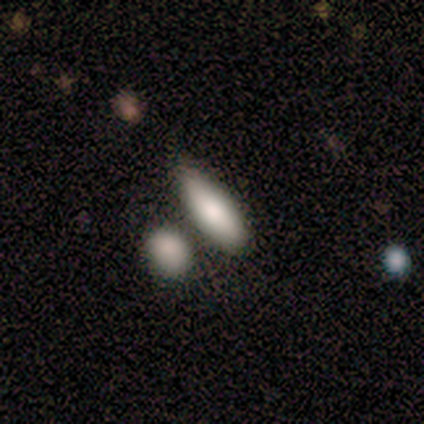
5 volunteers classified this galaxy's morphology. A smooth galaxy with no disk features (100%) that is cigar-shaped (60%).

Vote fractions:
- Smooth or featured? smooth: 100% / featured or disk: 0% / star or artifact: 0%
- How rounded? cigar-shaped: 60% / in between: 40% / round: 0%
- Merging? none: 60% / merger: 40% / minor disturbance: 0% / major disturbance: 0%